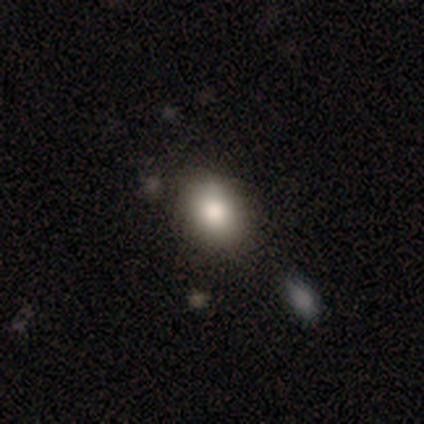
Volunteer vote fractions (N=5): Smooth or featured? smooth (80%)
How rounded? round (50%, tied with in between)
Merging? none (75%)